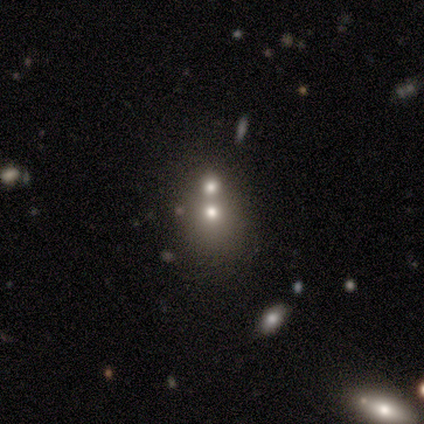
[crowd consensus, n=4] A smooth galaxy with no disk features (75%) that is round (100%). Merging: merger (67%).